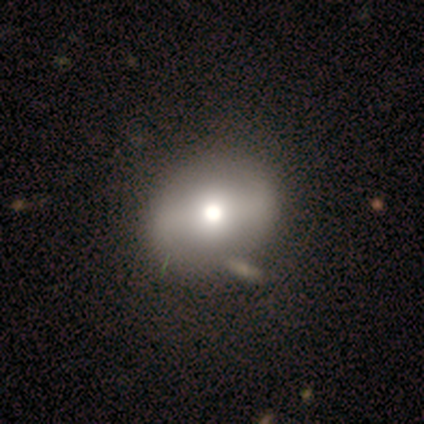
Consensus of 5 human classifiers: smooth 60%, featured or disk 40%, star or artifact 0%. Down the decision tree: how rounded — round (67%); merging — none (80%).